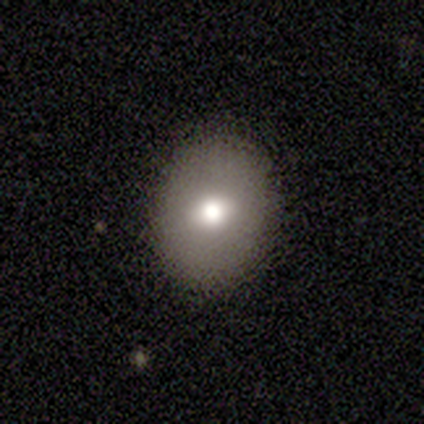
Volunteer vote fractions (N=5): Q: Smooth or featured?
A: smooth (60%); runner-up: featured or disk (20%)
Q: How rounded?
A: round (67%); runner-up: in between (33%)
Q: Merging?
A: none (100%)